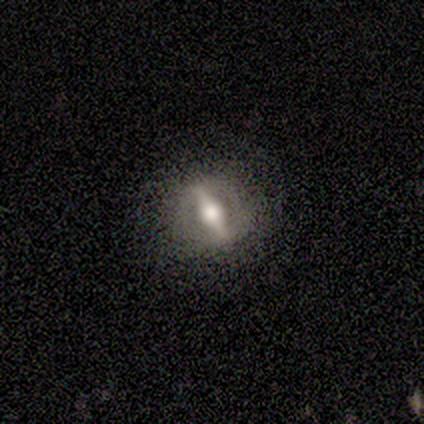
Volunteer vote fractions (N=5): Q: Smooth or featured?
A: featured or disk (60%); runner-up: smooth (20%)
Q: Edge-on disk?
A: no (67%); runner-up: yes (33%)
Q: Bar?
A: strong (100%)
Q: Spiral arms?
A: no (100%)
Q: Bulge size?
A: large (50%); tied with: moderate (50%)
Q: Merging?
A: minor disturbance (50%); runner-up: none (25%)